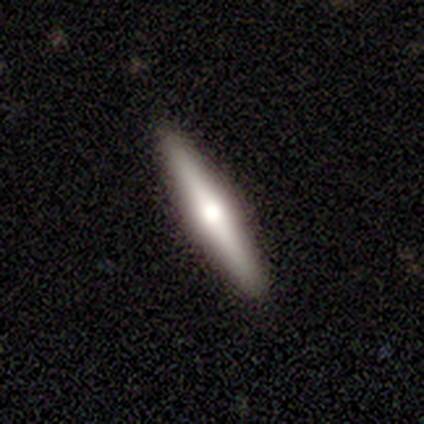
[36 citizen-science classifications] Overall: featured or disk (72%). Edge-on disk: yes (96%). Edge-on bulge: rounded (100%). Merging: none (97%).